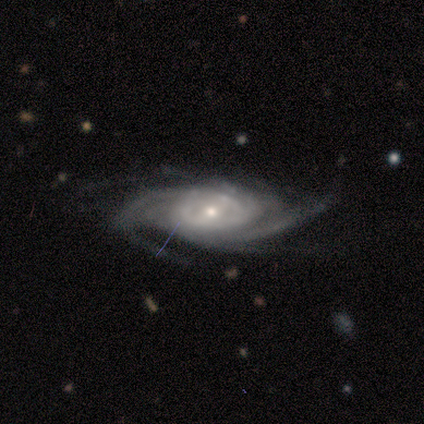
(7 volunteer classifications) Volunteers were most divided on "spiral arm count": 4: 57%, more than 4: 43%, 1: 0%, 2: 0%, 3: 0%, can't tell: 0%. More confident: smooth or featured — featured or disk (100%); edge-on disk — no (100%); spiral arms — yes (100%); bar — weak (71%); spiral winding — tight (71%); bulge size — small (57%); merging — none (57%).